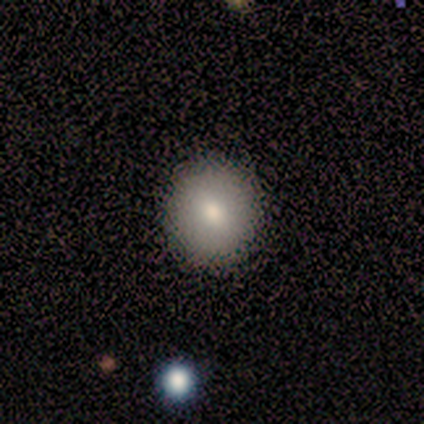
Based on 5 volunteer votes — Smooth or featured: smooth — 80% (featured or disk — 20%)
How rounded: round — 100%
Merging: none — 100%